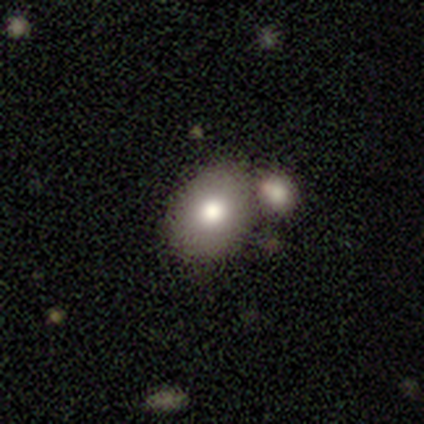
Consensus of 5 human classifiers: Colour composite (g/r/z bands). It shows a smooth galaxy with no disk features (80%) that is in between round and cigar-shaped (75%). Merging: none (60%).